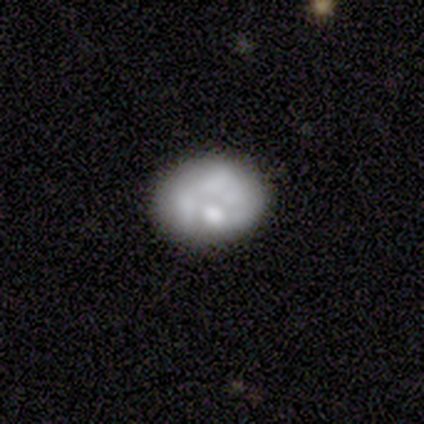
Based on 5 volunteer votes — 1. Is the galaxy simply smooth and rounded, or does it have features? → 60% smooth, 40% featured or disk, 0% star or artifact.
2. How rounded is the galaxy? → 100% in between, 0% round, 0% cigar-shaped.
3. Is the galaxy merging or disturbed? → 80% none, 20% major disturbance, 0% minor disturbance, 0% merger.